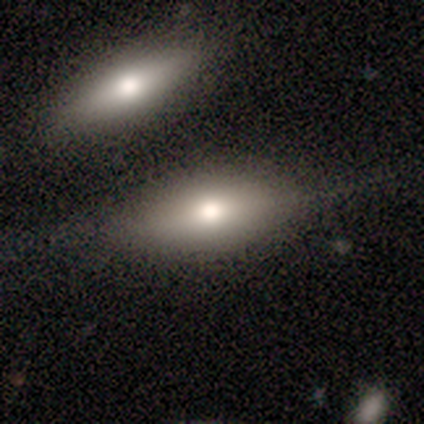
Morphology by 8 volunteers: Smooth or featured?
  - smooth: 100% *
  - featured or disk: 0%
  - star or artifact: 0%
How rounded?
  - in between: 75% *
  - cigar-shaped: 25%
  - round: 0%
Merging?
  - none: 62% *
  - minor disturbance: 25%
  - merger: 12%
  - major disturbance: 0%